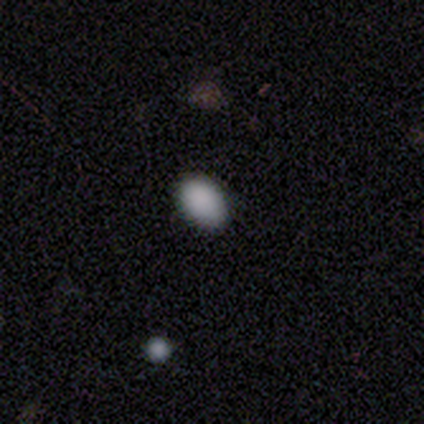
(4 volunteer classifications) Volunteers were most divided on "merging": none: 75%, minor disturbance: 25%, major disturbance: 0%, merger: 0%. More confident: smooth or featured — smooth (100%); how rounded — in between (100%).